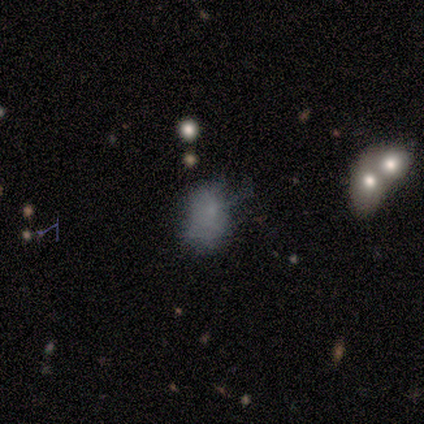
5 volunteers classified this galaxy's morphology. Smooth or featured? smooth (80%)
How rounded? in between (75%)
Merging? none (60%)